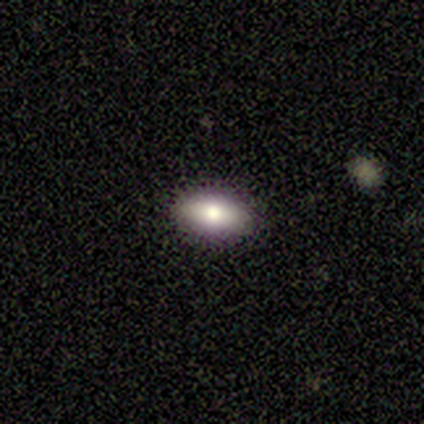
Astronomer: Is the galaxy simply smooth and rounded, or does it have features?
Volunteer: smooth — 80%.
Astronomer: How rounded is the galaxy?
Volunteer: in between — 100%.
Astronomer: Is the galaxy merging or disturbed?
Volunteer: none — 60%.